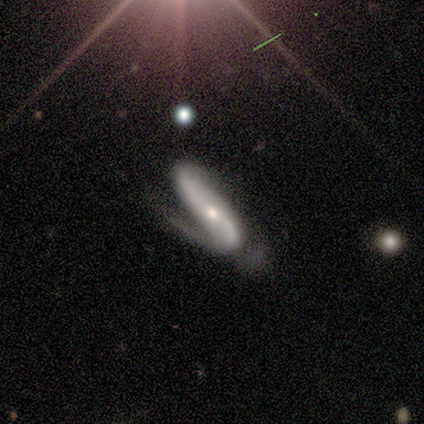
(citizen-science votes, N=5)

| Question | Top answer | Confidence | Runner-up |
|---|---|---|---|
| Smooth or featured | featured or disk | 80% | smooth (20%) |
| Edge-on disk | no | 100% | — |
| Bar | no | 75% | weak (25%) |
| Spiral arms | yes | 100% | — |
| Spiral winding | medium | 75% | loose (25%) |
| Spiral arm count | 2 | 75% | 1 (25%) |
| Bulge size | moderate | 50% | tied: small (50%) |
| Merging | none | 60% | minor disturbance (40%) |